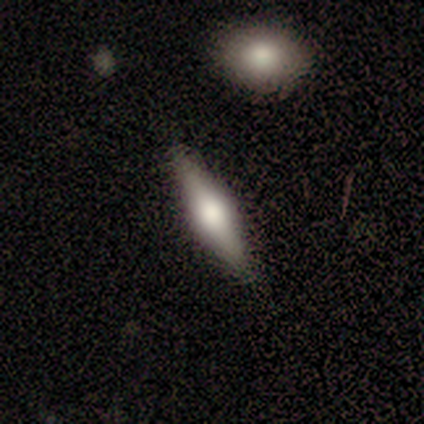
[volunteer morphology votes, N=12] Smooth or featured? 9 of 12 (75%) said featured or disk. Edge-on disk? 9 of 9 (100%) said yes. Edge-on bulge? 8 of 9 (89%) said rounded. Merging? 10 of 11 (91%) said none.